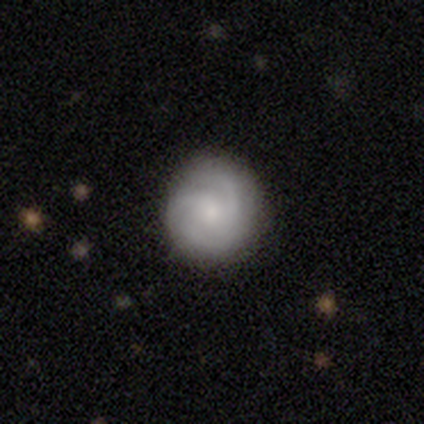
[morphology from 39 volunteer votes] smooth-or-featured: featured or disk: 67% | smooth: 31% | star or artifact: 3%
  disk-edge-on: no: 96% | yes: 4%
    bar: no: 76% | weak: 20% | strong: 4%
    has-spiral-arms: yes: 84% | no: 16%
      spiral-winding: medium: 52% | tight: 43% | loose: 5%
      spiral-arm-count: 3: 62% | can't tell: 24% | 2: 10% | 4: 5% | 1: 0% | more than 4: 0%
    bulge-size: small: 64% | moderate: 16% | dominant: 12% | large: 8% | none: 0%
  merging: none: 84% | major disturbance: 11% | minor disturbance: 5% | merger: 0%